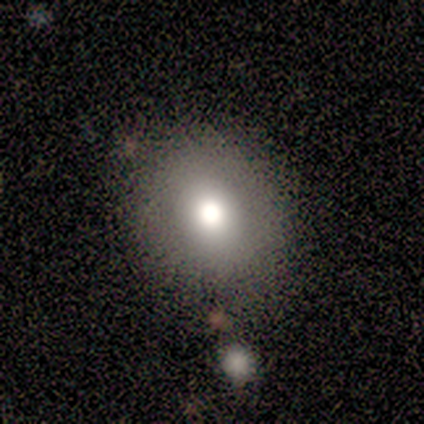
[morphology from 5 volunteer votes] This is likely a smooth galaxy (60%). How rounded: clearly round (100%). Merging: clearly none (100%).